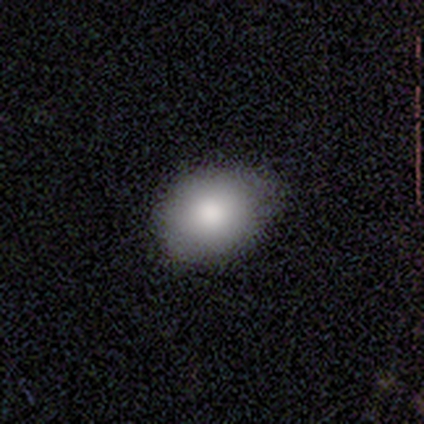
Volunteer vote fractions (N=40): Morphology: type=smooth (82%); roundness=in between (61%); merging=none (56%).